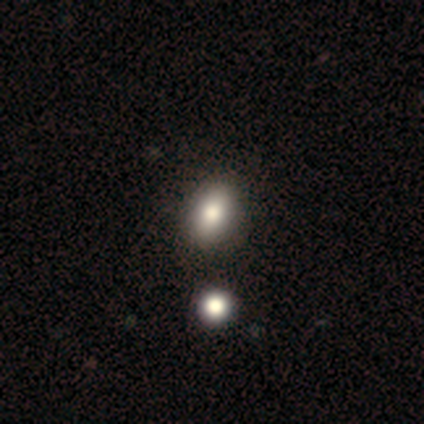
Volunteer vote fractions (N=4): Smooth or featured?
  - smooth: 75% *
  - star or artifact: 25%
  - featured or disk: 0%
How rounded?
  - in between: 100% *
  - round: 0%
  - cigar-shaped: 0%
Merging?
  - none: 67% *
  - major disturbance: 33%
  - minor disturbance: 0%
  - merger: 0%